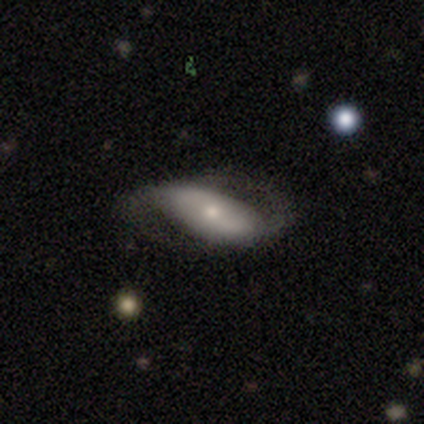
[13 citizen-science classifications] smooth_or_featured: featured or disk (p=0.77) [alt: smooth p=0.23]
disk_edge_on: no (p=1.00)
bar: no (p=0.70) [alt: strong p=0.20]
has_spiral_arms: yes (p=0.90) [alt: no p=0.10]
spiral_winding: medium (p=0.44) [tied with: loose p=0.44]
spiral_arm_count: 2 (p=0.89) [alt: can't tell p=0.11]
bulge_size: small (p=0.80) [alt: moderate p=0.10]
merging: none (p=0.69) [alt: major disturbance p=0.23]